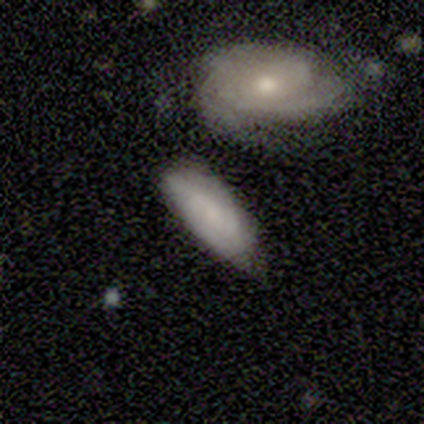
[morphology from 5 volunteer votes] This is likely a featured or disk galaxy (60%). It is clearly not viewed edge-on (100%). Bar: likely no (67%). Spiral arm pattern: likely yes (67%). Spiral arm count: possibly 2 (50%, tied with 4). Spiral winding: clearly tight (100%). Central bulge: marginally moderate (33%, tied with small and none). Merging: marginally none (40%, tied with merger).